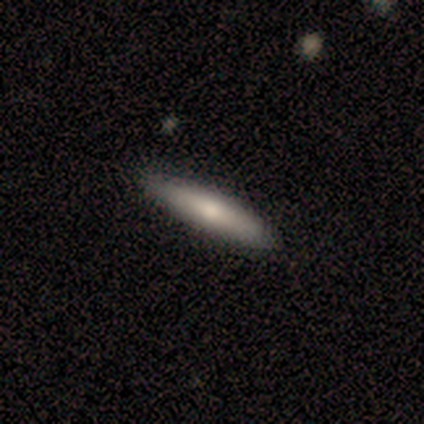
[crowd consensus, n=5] Q: Smooth or featured?
A: smooth (60%); runner-up: featured or disk (20%)
Q: How rounded?
A: cigar-shaped (67%); runner-up: in between (33%)
Q: Merging?
A: none (100%)